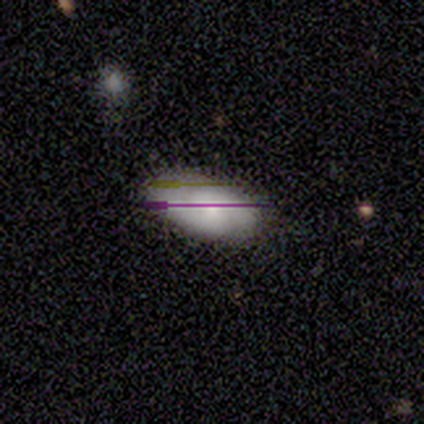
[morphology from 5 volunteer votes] Smooth or featured: smooth — 60% (star or artifact — 40%)
How rounded: in between — 100%
Merging: minor disturbance — 67% (none — 33%)